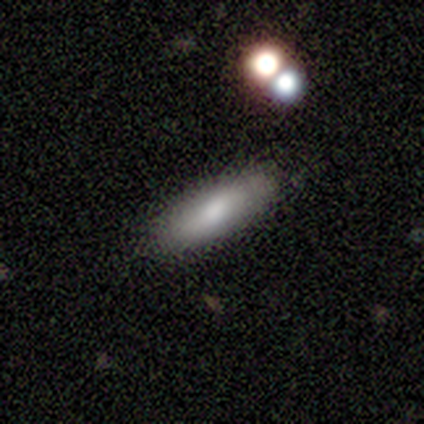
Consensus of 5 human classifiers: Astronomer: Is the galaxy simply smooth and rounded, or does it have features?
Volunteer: smooth — 80%.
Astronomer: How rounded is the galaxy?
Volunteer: in between — 50%, tied with cigar-shaped at 50%.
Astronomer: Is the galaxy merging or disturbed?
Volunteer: none — 60% (runner-up: minor disturbance, 40%).